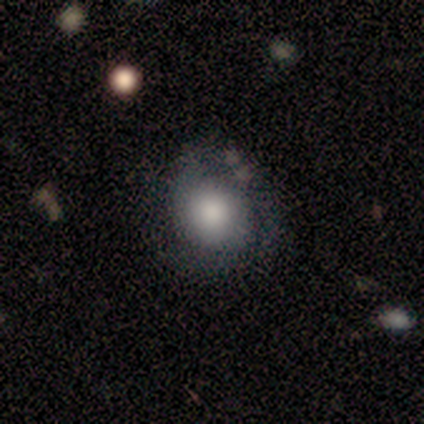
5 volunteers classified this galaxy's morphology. This is likely a featured or disk galaxy (60%). It is clearly not viewed edge-on (100%). Bar: likely no (67%). Spiral arm pattern: clearly yes (100%). Spiral arm count: likely 2 (67%). Spiral winding: likely tight (67%). Central bulge: clearly large (100%). Merging: clearly none (80%).